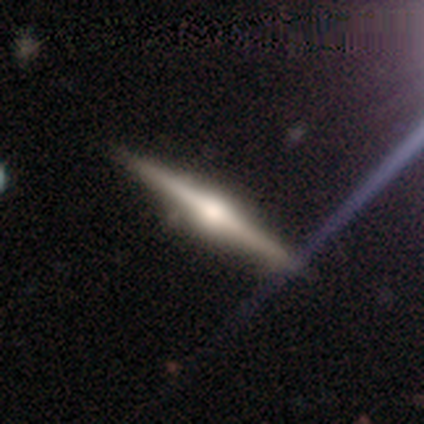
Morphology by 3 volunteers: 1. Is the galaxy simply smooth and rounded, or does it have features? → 100% featured or disk, 0% smooth, 0% star or artifact.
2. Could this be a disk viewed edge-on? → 100% yes, 0% no.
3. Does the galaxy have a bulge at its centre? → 100% rounded, 0% boxy, 0% none.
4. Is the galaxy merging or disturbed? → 100% none, 0% minor disturbance, 0% major disturbance, 0% merger.